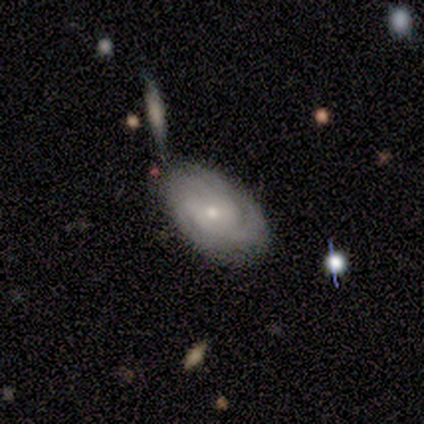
Volunteers were most divided on "merging": merger: 50%, none: 33%, minor disturbance: 17%, major disturbance: 0%. More confident: edge-on disk — no (100%); spiral arms — yes (100%); smooth or featured — featured or disk (83%); bar — no (80%); spiral arm count — 2 (80%); spiral winding — medium (60%); bulge size — small (60%).